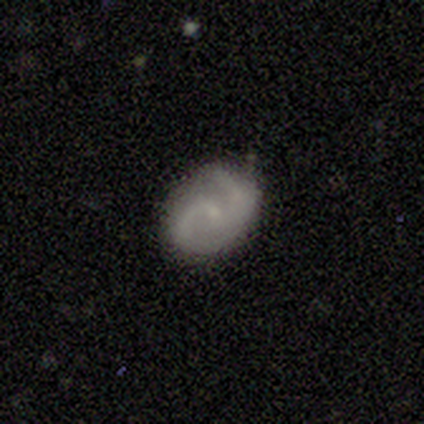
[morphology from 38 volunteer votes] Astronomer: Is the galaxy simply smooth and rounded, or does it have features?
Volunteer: featured or disk — 84%.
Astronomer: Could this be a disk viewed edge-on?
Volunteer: no — 94%.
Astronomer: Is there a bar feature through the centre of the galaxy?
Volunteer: no — 57% (runner-up: weak, 40%).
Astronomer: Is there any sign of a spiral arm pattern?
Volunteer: yes — 97%.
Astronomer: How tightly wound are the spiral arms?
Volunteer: medium — 62%.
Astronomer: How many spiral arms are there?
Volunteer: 2 — 90%.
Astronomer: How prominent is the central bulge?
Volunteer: small — 80%.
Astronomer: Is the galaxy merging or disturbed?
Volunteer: none — 74%.